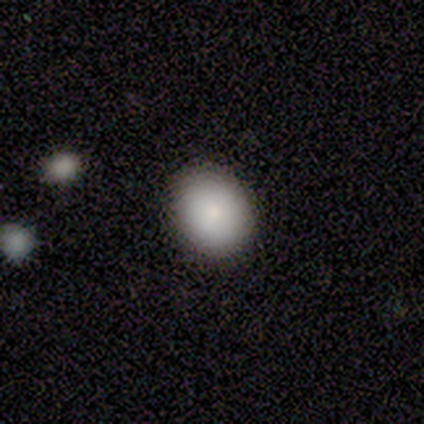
A smooth galaxy with no disk features (100%) that is in between round and cigar-shaped (60%). Merging: none (80%).